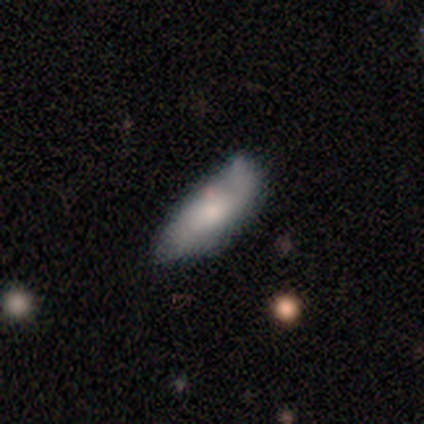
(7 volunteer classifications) smooth-or-featured: smooth: 86% | star or artifact: 14% | featured or disk: 0%
  how-rounded: in between: 67% | cigar-shaped: 33% | round: 0%
  merging: minor disturbance: 67% | major disturbance: 17% | merger: 17% | none: 0%